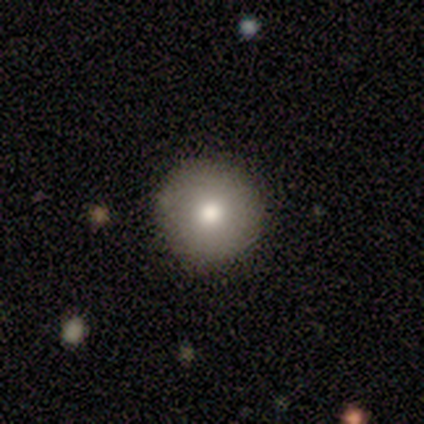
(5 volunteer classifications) Smooth or featured? 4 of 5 (80%) said smooth. How rounded? 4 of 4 (100%) said round. Merging? 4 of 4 (100%) said none.